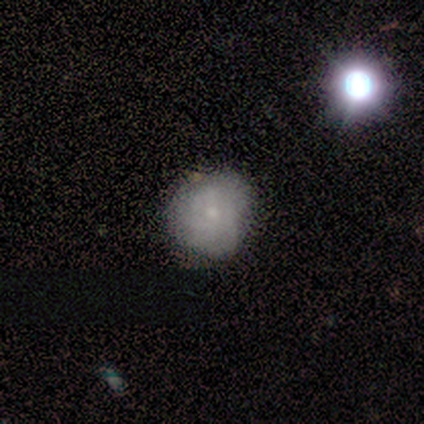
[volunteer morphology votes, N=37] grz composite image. It shows a smooth galaxy with no disk features (65%) that is round (88%). Merging: none (60%).